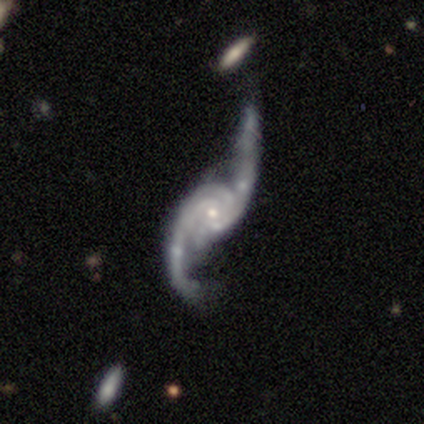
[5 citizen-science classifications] featured or disk 100%, smooth 0%, star or artifact 0%. Down the decision tree: edge-on disk — no (80%); bar — no (75%); spiral arms — yes (100%); spiral arm count — 2 (50%, tied with can't tell); spiral winding — loose (75%); bulge size — moderate (50%, tied with small); merging — none (40%, tied with major disturbance).